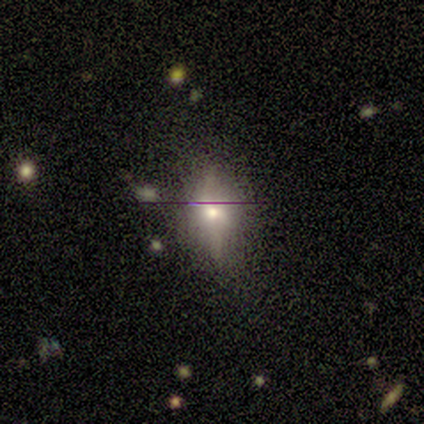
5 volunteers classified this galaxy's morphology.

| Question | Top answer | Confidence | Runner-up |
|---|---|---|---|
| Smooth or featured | smooth | 60% | featured or disk (20%) |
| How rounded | round | 67% | in between (33%) |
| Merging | none | 100% | — |